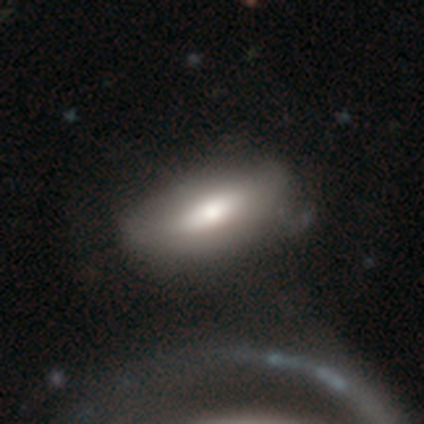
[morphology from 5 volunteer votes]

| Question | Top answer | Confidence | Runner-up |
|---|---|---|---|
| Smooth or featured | smooth | 80% | star or artifact (20%) |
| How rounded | in between | 100% | — |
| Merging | minor disturbance | 50% | none (25%) |